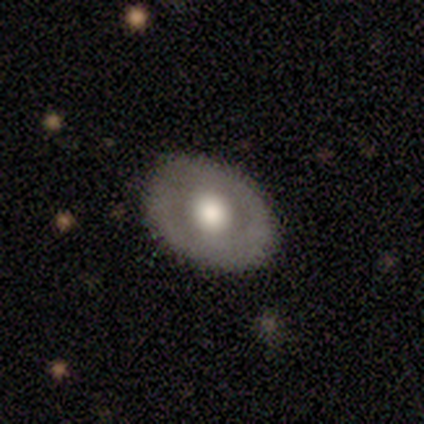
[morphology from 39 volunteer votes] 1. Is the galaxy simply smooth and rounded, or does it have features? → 54% featured or disk, 44% smooth, 3% star or artifact.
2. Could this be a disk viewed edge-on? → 90% no, 10% yes.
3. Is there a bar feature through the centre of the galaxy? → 89% no, 11% weak, 0% strong.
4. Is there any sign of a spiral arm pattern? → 74% no, 26% yes.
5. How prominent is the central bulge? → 68% large, 21% moderate, 11% dominant, 0% small, 0% none.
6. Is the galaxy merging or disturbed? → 61% none, 13% minor disturbance, 3% major disturbance, 3% merger.